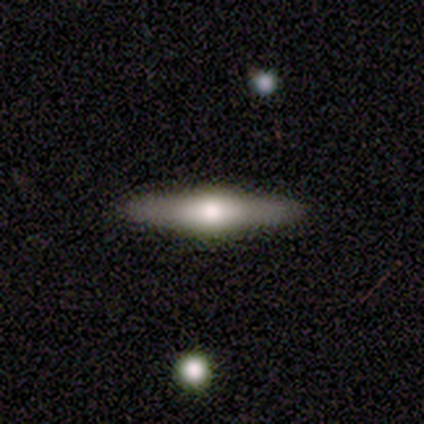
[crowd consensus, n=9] Volunteers were most divided on "smooth or featured": featured or disk: 78%, smooth: 22%, star or artifact: 0%. More confident: edge-on disk — yes (100%); merging — none (100%); edge-on bulge — rounded (86%).